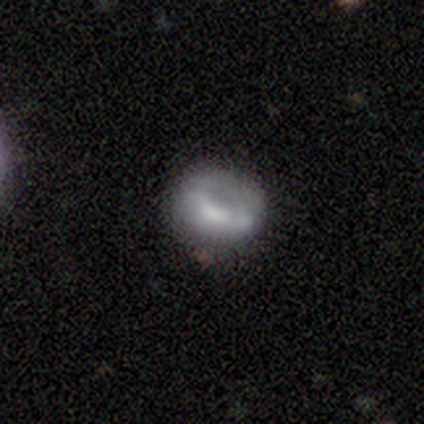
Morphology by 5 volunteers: Q: Smooth or featured?
A: smooth (60%); runner-up: featured or disk (40%)
Q: How rounded?
A: in between (67%); runner-up: cigar-shaped (33%)
Q: Merging?
A: none (80%); runner-up: minor disturbance (20%)